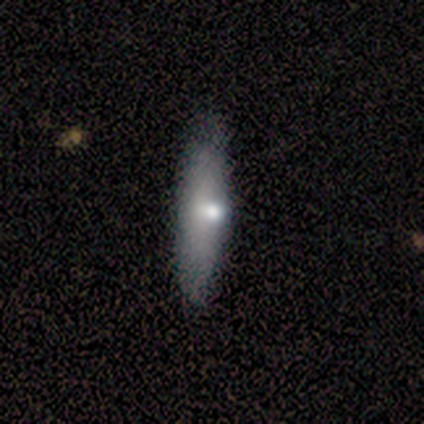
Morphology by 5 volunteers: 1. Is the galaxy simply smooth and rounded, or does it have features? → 60% smooth, 40% featured or disk, 0% star or artifact.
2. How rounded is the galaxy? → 67% cigar-shaped, 33% in between, 0% round.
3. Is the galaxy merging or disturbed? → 100% none, 0% minor disturbance, 0% major disturbance, 0% merger.